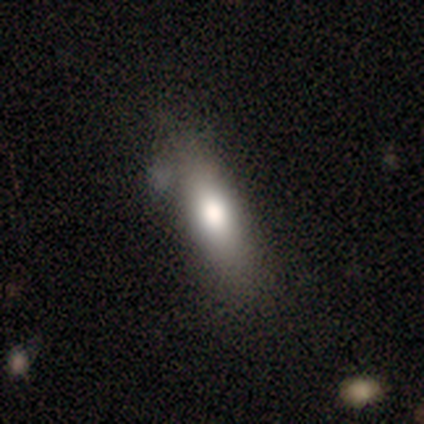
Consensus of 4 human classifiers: smooth 75%, star or artifact 25%, featured or disk 0%. Down the decision tree: how rounded — in between (67%); merging — minor disturbance (67%).